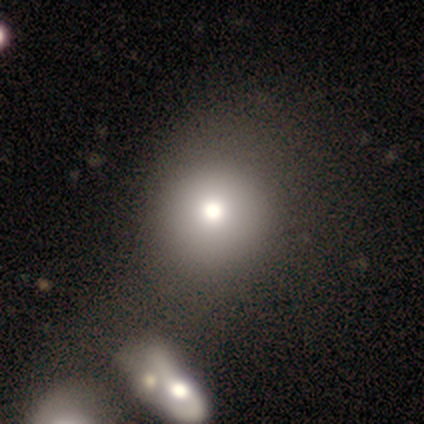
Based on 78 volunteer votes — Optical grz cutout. It shows a smooth galaxy with no disk features (79%) that is round (95%). Merging: none (51%).